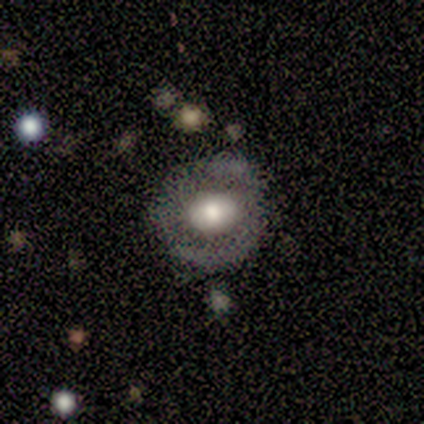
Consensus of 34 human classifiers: Smooth or featured?
  - featured or disk: 53% *
  - smooth: 41%
  - star or artifact: 6%
Edge-on disk?
  - no: 94% *
  - yes: 6%
Bar?
  - no: 71% *
  - strong: 18%
  - weak: 12%
Spiral arms?
  - no: 88% *
  - yes: 12%
Bulge size?
  - moderate: 47% *
  - large: 35%
  - dominant: 12%
  - small: 6%
  - none: 0%
Merging?
  - none: 81% *
  - minor disturbance: 12%
  - major disturbance: 6%
  - merger: 0%